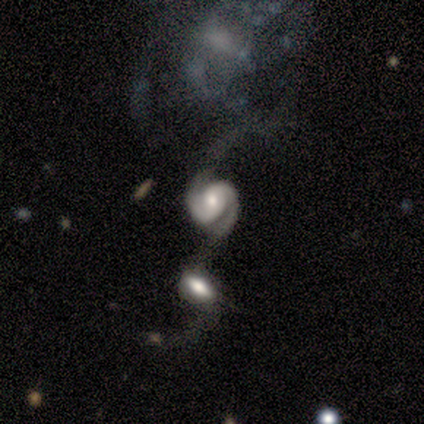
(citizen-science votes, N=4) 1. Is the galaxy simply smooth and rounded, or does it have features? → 100% featured or disk, 0% smooth, 0% star or artifact.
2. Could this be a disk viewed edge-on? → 100% no, 0% yes.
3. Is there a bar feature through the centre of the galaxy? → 75% no, 25% strong, 0% weak.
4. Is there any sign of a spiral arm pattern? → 100% yes, 0% no.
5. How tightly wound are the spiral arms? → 50% medium (tied), 50% loose (tied), 0% tight.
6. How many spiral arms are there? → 100% 2, 0% 1, 0% 3, 0% 4, 0% more than 4, 0% can't tell.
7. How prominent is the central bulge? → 75% moderate, 25% none, 0% dominant, 0% large, 0% small.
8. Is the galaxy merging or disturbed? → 50% minor disturbance, 25% none, 25% merger, 0% major disturbance.